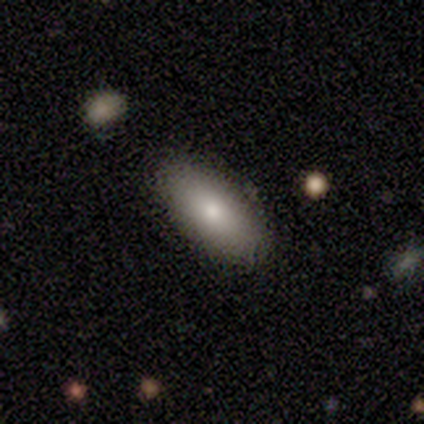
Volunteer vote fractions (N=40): Smooth or featured?
  - smooth: 75% *
  - featured or disk: 15%
  - star or artifact: 10%
How rounded?
  - in between: 87% *
  - cigar-shaped: 13%
  - round: 0%
Merging?
  - none: 94% *
  - minor disturbance: 6%
  - major disturbance: 0%
  - merger: 0%